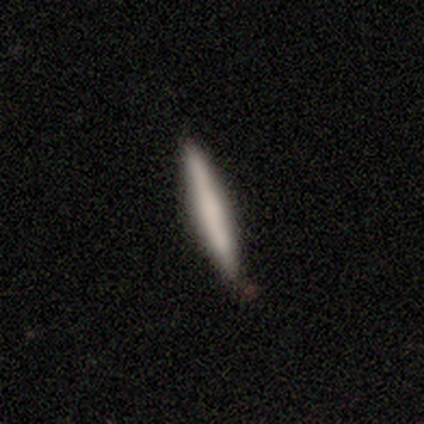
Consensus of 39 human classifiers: Volunteers were most divided on "smooth or featured": smooth: 59%, featured or disk: 36%, star or artifact: 5%. More confident: how rounded — cigar-shaped (100%); merging — none (86%).